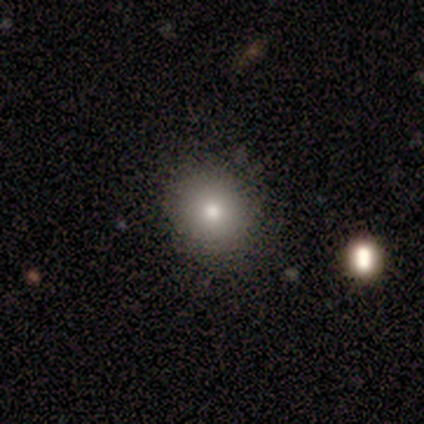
Smooth or featured? 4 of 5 (80%) said smooth. How rounded? 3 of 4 (75%) said round. Merging? 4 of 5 (80%) said none.